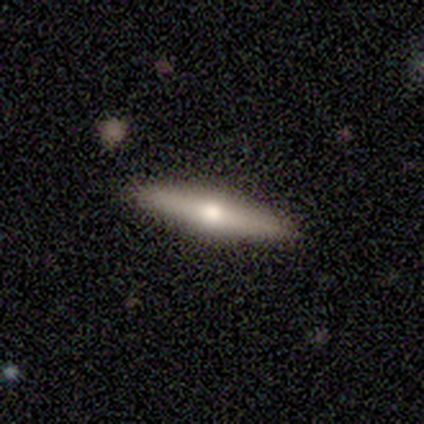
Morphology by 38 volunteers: Smooth or featured: featured or disk — 55% (smooth — 45%)
Edge-on disk: yes — 100%
Edge-on bulge: rounded — 90% (none — 10%)
Merging: none — 95% (minor disturbance — 5%)